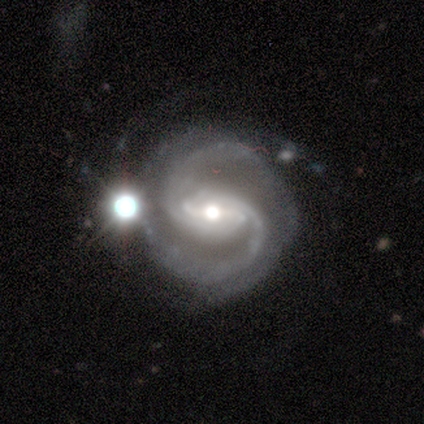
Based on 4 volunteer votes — Volunteers were most divided on "bulge size" (3-way tie): moderate: 33%, small: 33%, none: 33%, dominant: 0%, large: 0%. More confident: edge-on disk — no (100%); spiral arms — yes (100%); spiral arm count — 2 (100%); merging — none (100%); smooth or featured — featured or disk (75%); bar — strong (67%); spiral winding — tight (67%).